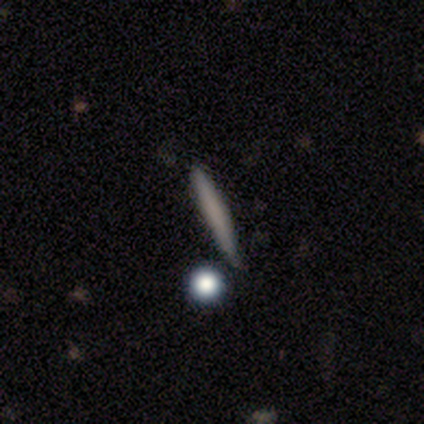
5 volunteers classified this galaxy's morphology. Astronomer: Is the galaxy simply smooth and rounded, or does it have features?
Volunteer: smooth — 100%.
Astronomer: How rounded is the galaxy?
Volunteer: cigar-shaped — 100%.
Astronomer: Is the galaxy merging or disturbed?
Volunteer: none — 80%.